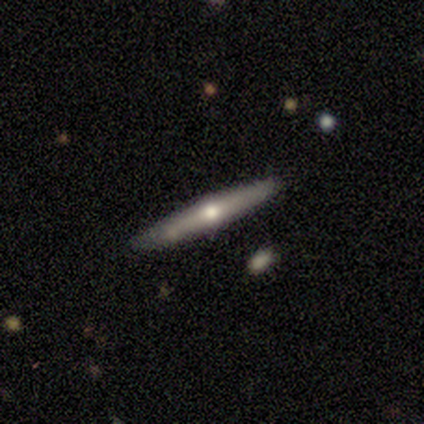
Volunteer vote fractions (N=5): Smooth or featured: featured or disk — 100%
Edge-on disk: yes — 100%
Edge-on bulge: rounded — 100%
Merging: none — 40% (tied with minor disturbance — 40%)